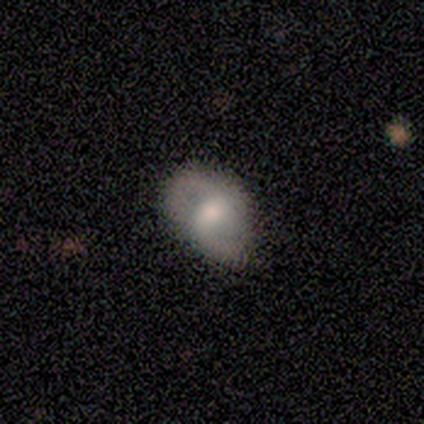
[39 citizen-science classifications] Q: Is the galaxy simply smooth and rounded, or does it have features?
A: featured or disk — 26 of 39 (67%).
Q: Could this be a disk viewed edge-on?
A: no — 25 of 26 (96%).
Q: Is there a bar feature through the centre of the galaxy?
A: weak — 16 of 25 (64%).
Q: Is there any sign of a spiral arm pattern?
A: yes — 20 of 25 (80%).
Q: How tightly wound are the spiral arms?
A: medium — 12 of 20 (60%).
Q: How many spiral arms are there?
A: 2 — 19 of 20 (95%).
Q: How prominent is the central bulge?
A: moderate — 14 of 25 (56%).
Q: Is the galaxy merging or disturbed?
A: none — 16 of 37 (43%).